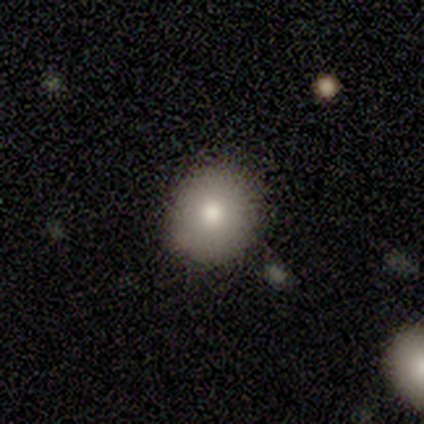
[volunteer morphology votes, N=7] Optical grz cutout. It shows a smooth galaxy with no disk features (71%) that is round (60%). Merging: none (67%).